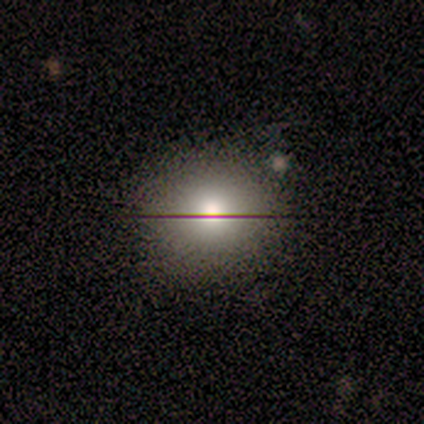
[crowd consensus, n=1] Consensus on every question: smooth or featured — smooth (100%); how rounded — round (100%); merging — none (100%).